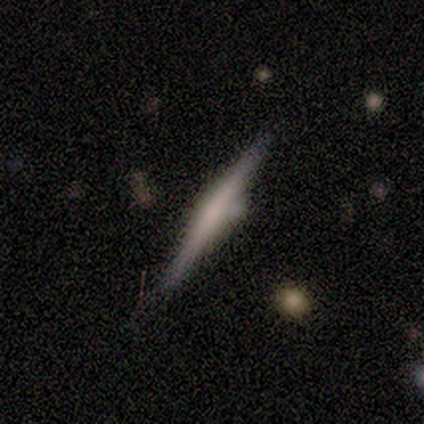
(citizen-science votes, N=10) Smooth or featured? featured or disk (70%)
Edge-on disk? yes (100%)
Edge-on bulge? rounded (71%)
Merging? minor disturbance (60%)